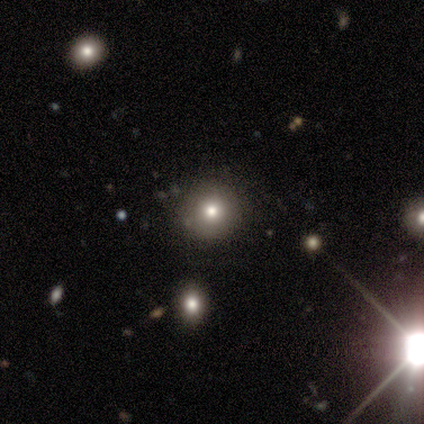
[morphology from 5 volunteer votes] smooth_or_featured: smooth (p=0.80) [alt: star or artifact p=0.20]
how_rounded: round (p=1.00)
merging: none (p=1.00)